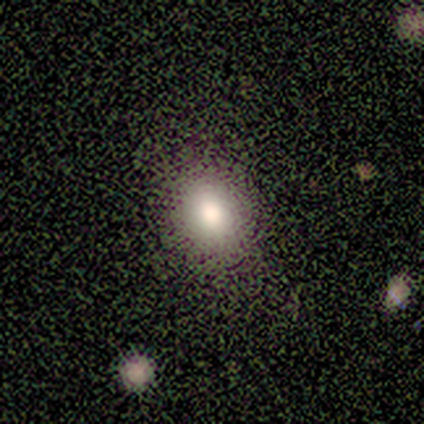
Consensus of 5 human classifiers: Smooth or featured?
  - smooth: 60% *
  - featured or disk: 40%
  - star or artifact: 0%
How rounded?
  - round: 67% *
  - in between: 33%
  - cigar-shaped: 0%
Merging?
  - none: 100% *
  - minor disturbance: 0%
  - major disturbance: 0%
  - merger: 0%